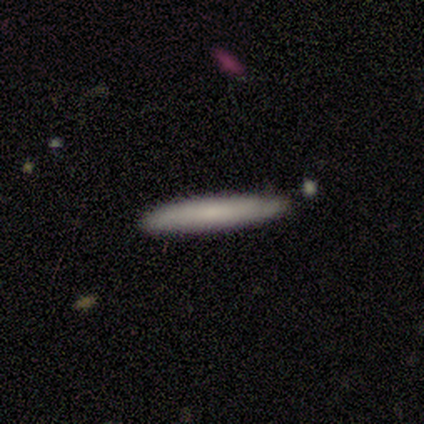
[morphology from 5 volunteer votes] smooth_or_featured: smooth (p=1.00)
how_rounded: cigar-shaped (p=1.00)
merging: none (p=0.60) [alt: minor disturbance p=0.40]